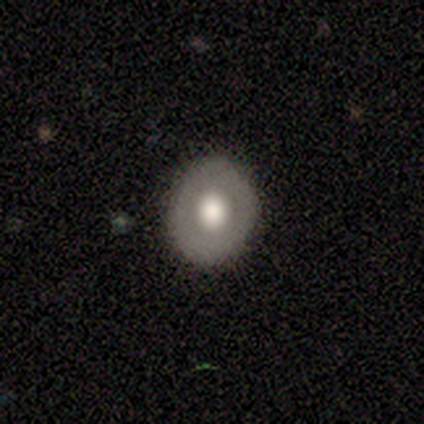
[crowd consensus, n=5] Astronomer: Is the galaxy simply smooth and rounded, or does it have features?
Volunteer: smooth — 60% (runner-up: featured or disk, 40%).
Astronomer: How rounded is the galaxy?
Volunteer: round — 100%.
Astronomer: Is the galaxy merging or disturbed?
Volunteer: none — 80%.